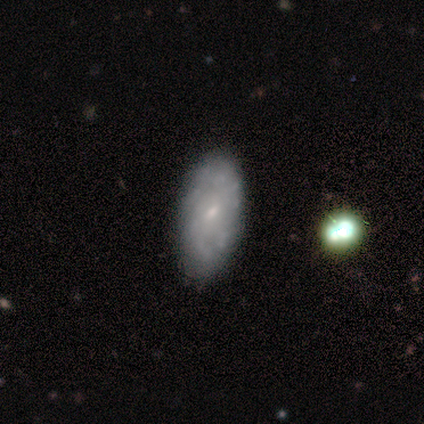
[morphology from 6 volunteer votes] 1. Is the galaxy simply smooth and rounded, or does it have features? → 50% smooth (tied), 50% featured or disk (tied), 0% star or artifact.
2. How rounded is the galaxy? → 100% in between, 0% round, 0% cigar-shaped.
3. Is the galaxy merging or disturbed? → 83% none, 17% minor disturbance, 0% major disturbance, 0% merger.